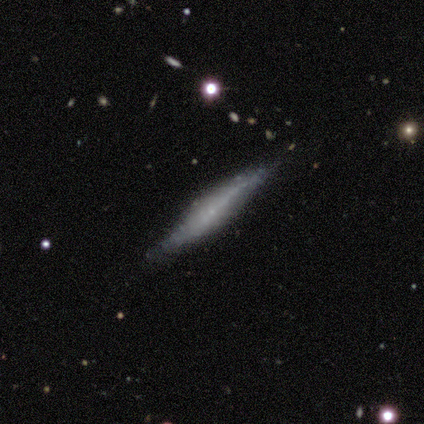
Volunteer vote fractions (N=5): smooth-or-featured: featured or disk: 80% | smooth: 20% | star or artifact: 0%
  disk-edge-on: yes: 100% | no: 0%
    edge-on-bulge: rounded: 100% | boxy: 0% | none: 0%
  merging: none: 40% (tied) | merger: 40% (tied) | major disturbance: 20% | minor disturbance: 0%